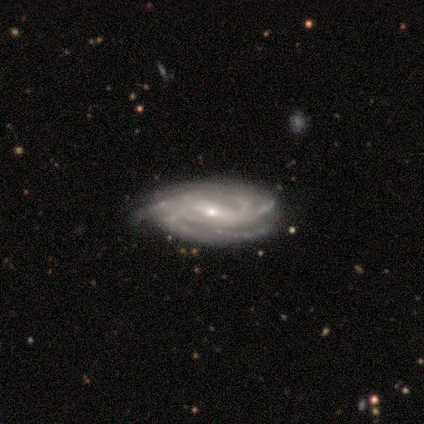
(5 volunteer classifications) Smooth or featured: featured or disk — 100%
Edge-on disk: no — 100%
Bar: weak — 60% (strong — 20%)
Spiral arms: yes — 100%
Spiral winding: tight — 80% (medium — 20%)
Spiral arm count: 4 — 40% (tied with can't tell — 40%)
Bulge size: small — 80% (moderate — 20%)
Merging: none — 60% (minor disturbance — 40%)